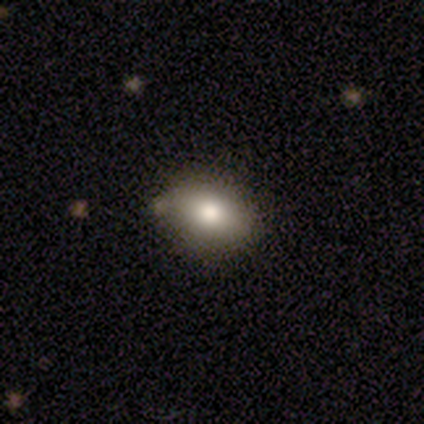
smooth_or_featured: smooth (p=1.00)
how_rounded: in between (p=0.60) [alt: round p=0.40]
merging: none (p=1.00)